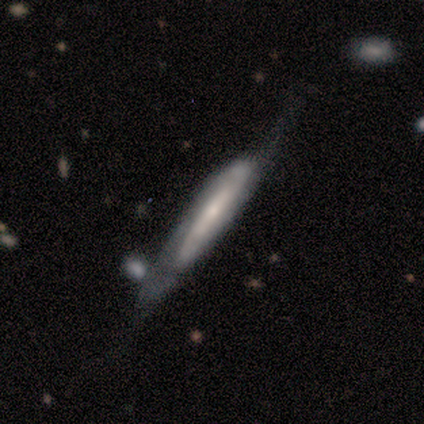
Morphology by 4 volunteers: A smooth galaxy with no disk features (75%) that is cigar-shaped (100%).

Vote fractions:
- Smooth or featured? smooth: 75% / featured or disk: 25% / star or artifact: 0%
- How rounded? cigar-shaped: 100% / round: 0% / in between: 0%
- Merging? none: 75% / major disturbance: 25% / minor disturbance: 0% / merger: 0%